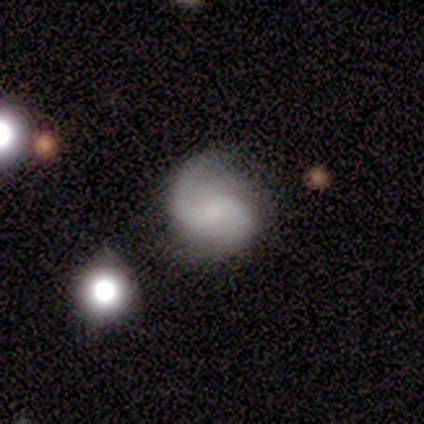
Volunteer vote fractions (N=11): Volunteers were most divided on "bulge size" (2-way tie): small: 38%, none: 38%, moderate: 25%, dominant: 0%, large: 0%; "merging" (2-way tie): none: 45%, minor disturbance: 45%, major disturbance: 9%, merger: 0%. More confident: edge-on disk — no (100%); spiral arms — yes (100%); spiral arm count — 2 (88%); smooth or featured — featured or disk (73%); spiral winding — loose (62%); bar — weak (50%).